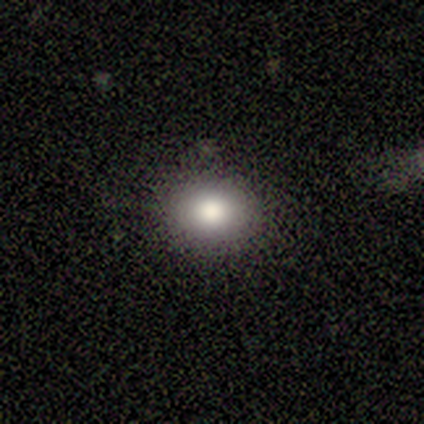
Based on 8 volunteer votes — smooth 88%, featured or disk 12%, star or artifact 0%. Down the decision tree: how rounded — in between (57%); merging — none (88%).